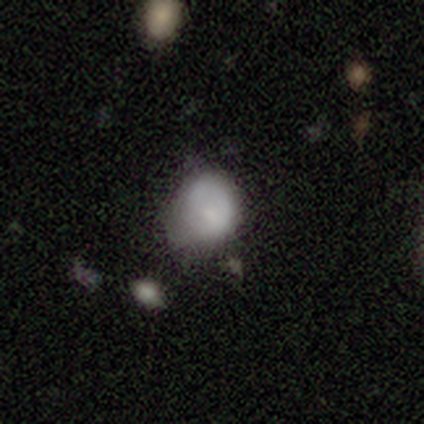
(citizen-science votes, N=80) Smooth or featured?
  - smooth: 75% *
  - featured or disk: 20%
  - star or artifact: 5%
How rounded?
  - round: 50% *
  - in between: 48%
  - cigar-shaped: 2%
Merging?
  - minor disturbance: 26% *
  - none: 14%
  - major disturbance: 8%
  - merger: 7%